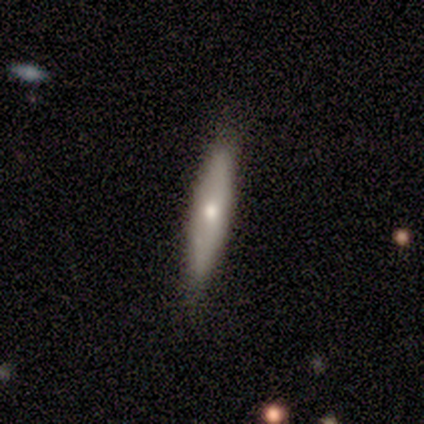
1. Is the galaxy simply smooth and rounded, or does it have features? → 100% featured or disk, 0% smooth, 0% star or artifact.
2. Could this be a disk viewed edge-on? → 100% yes, 0% no.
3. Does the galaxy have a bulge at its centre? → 100% rounded, 0% boxy, 0% none.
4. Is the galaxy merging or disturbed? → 100% none, 0% minor disturbance, 0% major disturbance, 0% merger.